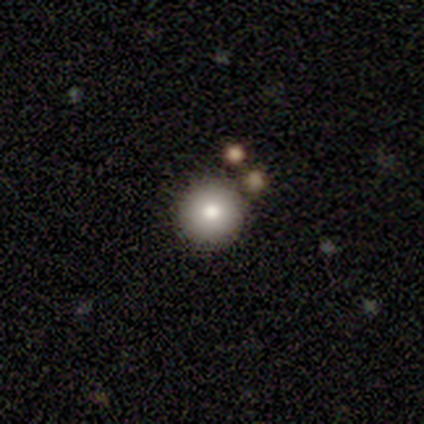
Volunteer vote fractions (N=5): Volunteers were most divided on "merging": none: 80%, minor disturbance: 20%, major disturbance: 0%, merger: 0%. More confident: smooth or featured — smooth (100%); how rounded — round (100%).